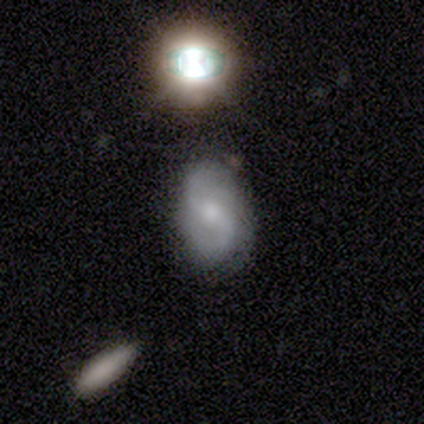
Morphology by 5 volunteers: This is clearly a featured or disk galaxy (80%). It is clearly not viewed edge-on (100%). Bar: likely weak (75%). Spiral arm pattern: clearly yes (100%). Spiral arm count: clearly 2 (100%). Spiral winding: possibly medium (50%, tied with loose). Central bulge: likely small (75%). Merging: clearly none (80%).